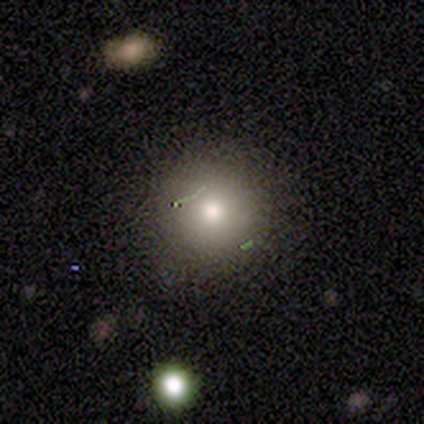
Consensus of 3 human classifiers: Smooth or featured?
  - smooth: 67% *
  - featured or disk: 33%
  - star or artifact: 0%
How rounded?
  - round: 100% *
  - in between: 0%
  - cigar-shaped: 0%
Merging?
  - none: 100% *
  - minor disturbance: 0%
  - major disturbance: 0%
  - merger: 0%